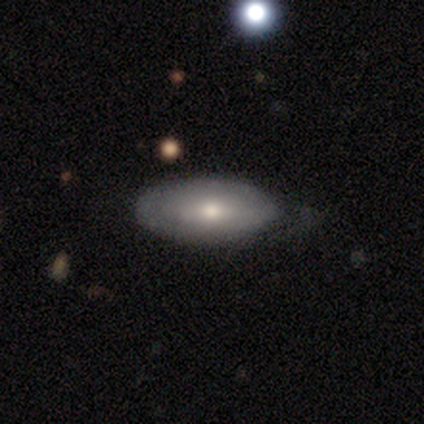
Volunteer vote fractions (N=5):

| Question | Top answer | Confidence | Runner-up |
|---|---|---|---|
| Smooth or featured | smooth | 80% | featured or disk (20%) |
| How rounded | in between | 100% | — |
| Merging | minor disturbance | 60% | none (40%) |